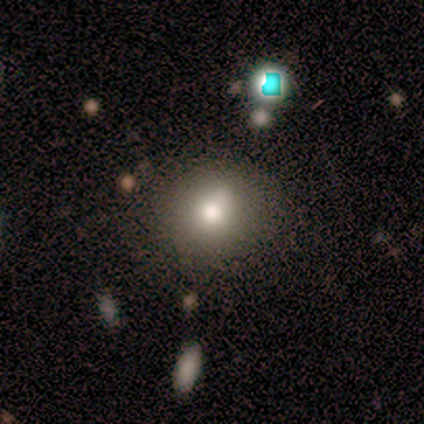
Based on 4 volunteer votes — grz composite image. It shows a smooth galaxy with no disk features (75%) that is round (100%). Merging: none (67%).